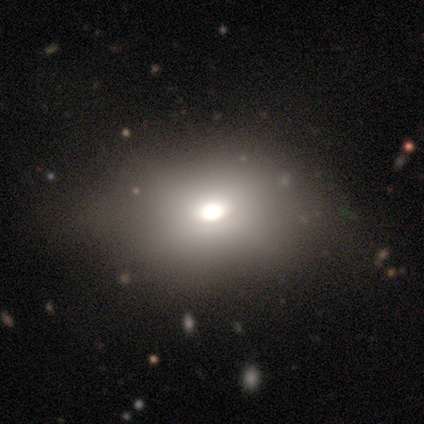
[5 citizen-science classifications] A smooth galaxy with no disk features (80%) that is in between round and cigar-shaped (100%). Merging: minor disturbance (60%).